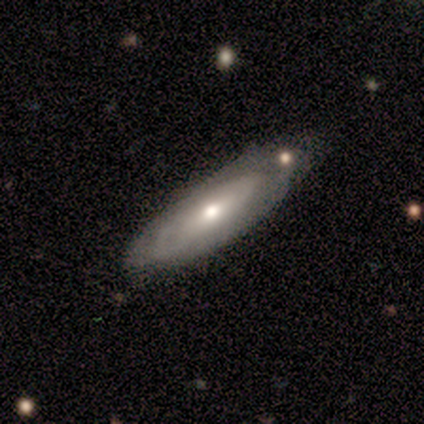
Smooth or featured? 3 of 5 (60%) said smooth. How rounded? 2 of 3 (67%) said in between. Merging? 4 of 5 (80%) said none.